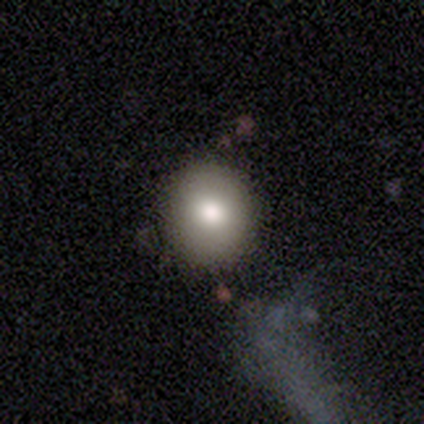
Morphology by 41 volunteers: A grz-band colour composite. It shows a smooth galaxy with no disk features (90%) that is round (86%). Merging: none (87%).